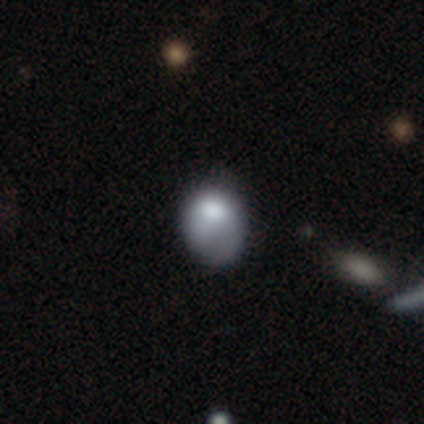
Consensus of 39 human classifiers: Q: Smooth or featured?
A: smooth (77%); runner-up: featured or disk (21%)
Q: How rounded?
A: in between (57%); runner-up: round (43%)
Q: Merging?
A: minor disturbance (16%); tied with: major disturbance (16%)